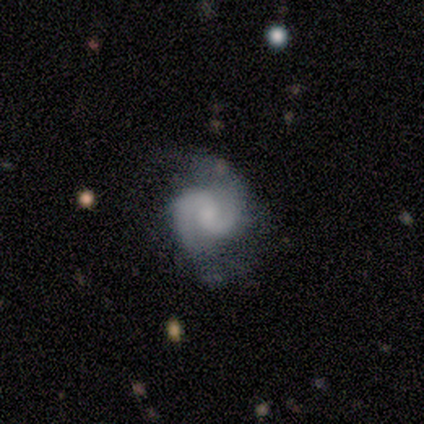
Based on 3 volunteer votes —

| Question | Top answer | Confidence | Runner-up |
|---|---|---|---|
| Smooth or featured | featured or disk | 100% | — |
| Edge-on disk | no | 100% | — |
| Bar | no | 100% | — |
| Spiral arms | yes | 100% | — |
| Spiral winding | tight | 33% | tied: medium (33%), loose (33%) |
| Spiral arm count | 2 | 100% | — |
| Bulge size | none | 67% | small (33%) |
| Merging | none | 67% | major disturbance (33%) |